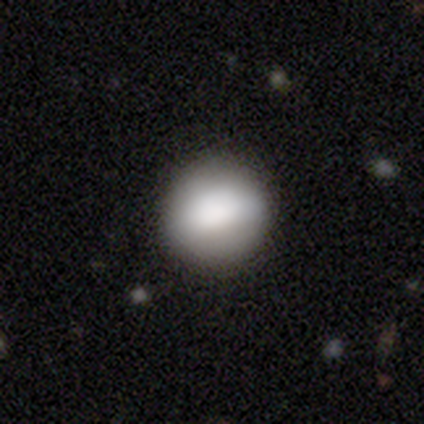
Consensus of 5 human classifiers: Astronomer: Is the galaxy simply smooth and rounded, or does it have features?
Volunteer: featured or disk — 60% (runner-up: smooth, 40%).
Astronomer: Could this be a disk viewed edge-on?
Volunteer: no — 100%.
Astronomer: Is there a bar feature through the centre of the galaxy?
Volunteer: no — 67%.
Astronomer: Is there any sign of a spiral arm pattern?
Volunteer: no — 100%.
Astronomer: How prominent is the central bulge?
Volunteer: dominant — 67%.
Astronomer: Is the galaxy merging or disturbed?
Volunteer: none — 60% (runner-up: minor disturbance, 40%).